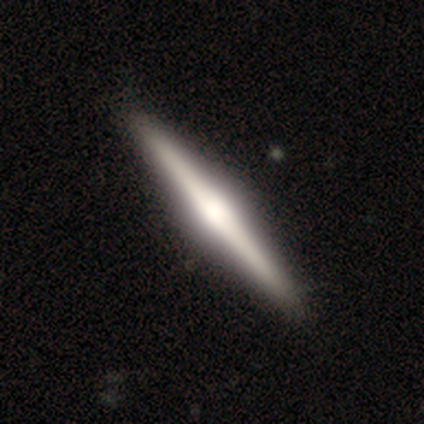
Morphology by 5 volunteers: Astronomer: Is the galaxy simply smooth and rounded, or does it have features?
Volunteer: smooth — 60%.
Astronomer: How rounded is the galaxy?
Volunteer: cigar-shaped — 67%.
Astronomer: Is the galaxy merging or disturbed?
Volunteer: none — 100%.